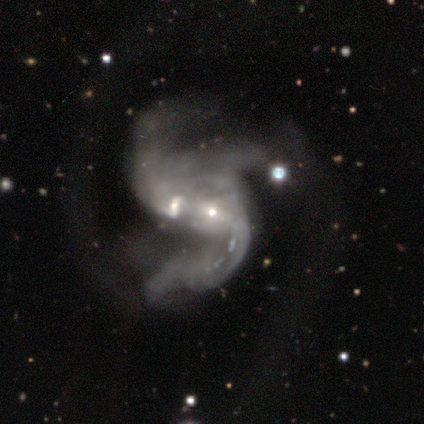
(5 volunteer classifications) A featured or disk galaxy (100%) with no bar (60%), 3 (75%) loose (75%) spiral arms (80%) and a moderate central bulge (60%). Merging: merger (60%).